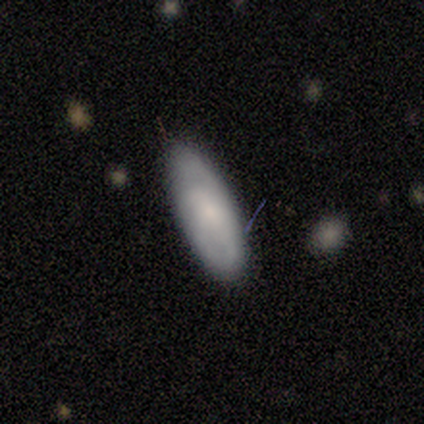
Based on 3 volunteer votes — Smooth or featured: smooth — 67% (featured or disk — 33%)
How rounded: in between — 100%
Merging: none — 100%